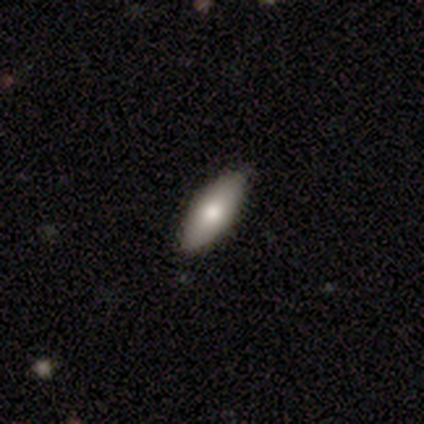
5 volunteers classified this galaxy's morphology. Smooth or featured? 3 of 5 (60%) said smooth. How rounded? 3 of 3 (100%) said in between. Merging? 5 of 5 (100%) said none.